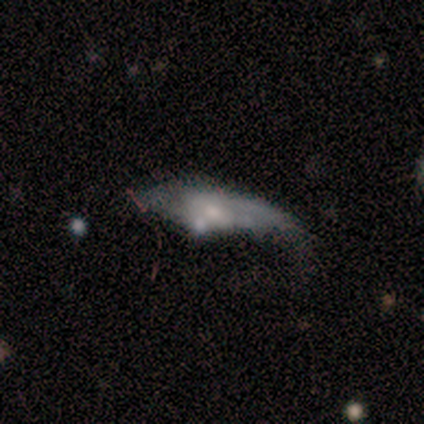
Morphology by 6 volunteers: Volunteers were most divided on "bulge size" (3-way tie): moderate: 33%, small: 33%, none: 33%, dominant: 0%, large: 0%; "merging" (2-way tie): none: 33%, major disturbance: 33%, minor disturbance: 17%, merger: 17%. More confident: bar — weak (100%); spiral arms — yes (100%); edge-on disk — no (75%); smooth or featured — featured or disk (67%); spiral winding — medium (67%); spiral arm count — can't tell (67%).